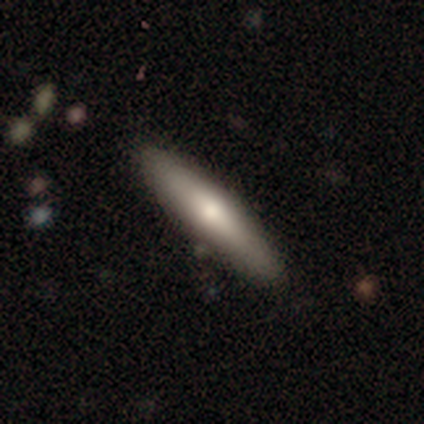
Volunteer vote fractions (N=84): smooth 51%, featured or disk 43%, star or artifact 6%. Down the decision tree: how rounded — cigar-shaped (84%); merging — none (87%).